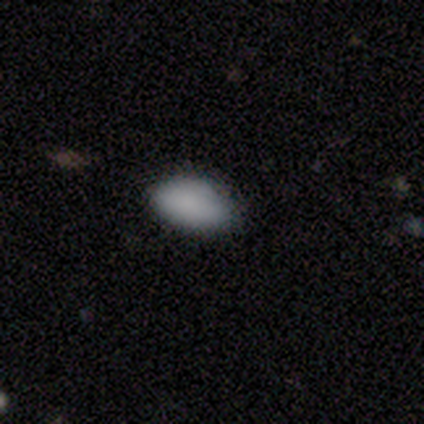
A smooth galaxy with no disk features (100%) that is in between round and cigar-shaped (100%). Merging: none (80%).